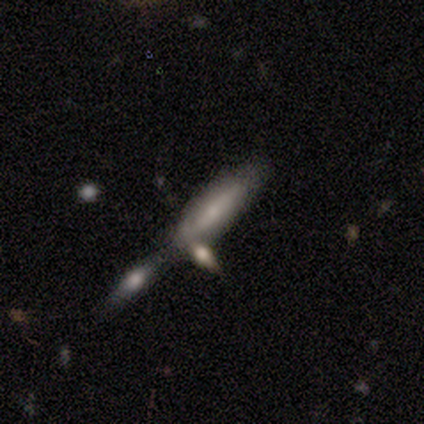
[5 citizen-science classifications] smooth 60%, featured or disk 40%, star or artifact 0%. Down the decision tree: how rounded — cigar-shaped (100%); merging — minor disturbance (60%).